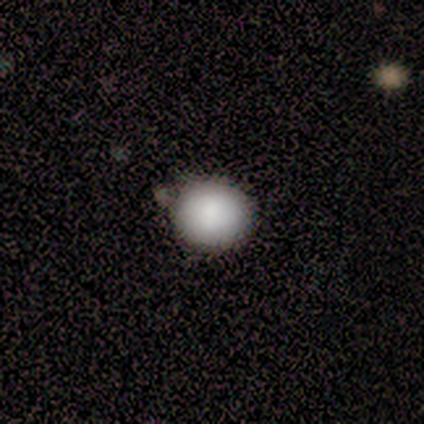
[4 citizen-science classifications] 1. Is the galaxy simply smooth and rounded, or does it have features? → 100% smooth, 0% featured or disk, 0% star or artifact.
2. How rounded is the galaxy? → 100% round, 0% in between, 0% cigar-shaped.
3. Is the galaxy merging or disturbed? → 75% none, 25% minor disturbance, 0% major disturbance, 0% merger.